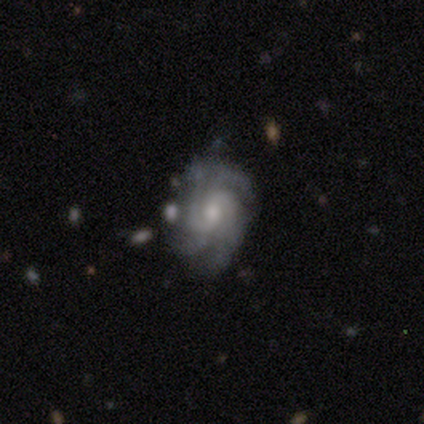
Smooth or featured: featured or disk — 90% (smooth — 7%)
Edge-on disk: no — 97% (yes — 3%)
Bar: no — 60% (weak — 37%)
Spiral arms: yes — 99% (no — 1%)
Spiral winding: tight — 54% (medium — 38%)
Spiral arm count: 4 — 49% (can't tell — 22%)
Bulge size: moderate — 52% (small — 44%)
Merging: none — 67% (minor disturbance — 20%)